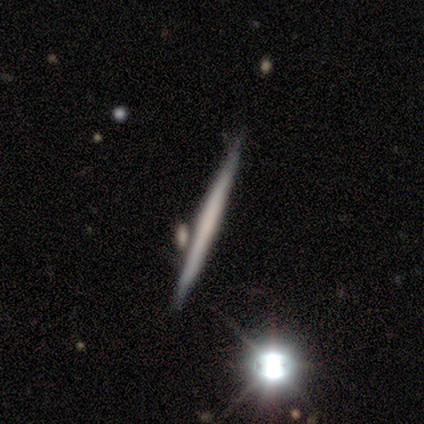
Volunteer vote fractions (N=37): A featured or disk galaxy (46%) viewed edge-on (100%) with no central bulge (94%).

Vote fractions:
- Smooth or featured? featured or disk: 46% / smooth: 43% / star or artifact: 11%
- Edge-on disk? yes: 100% / no: 0%
- Edge-on bulge? none: 94% / boxy: 6% / rounded: 0%
- Merging? none: 70% / minor disturbance: 18% / merger: 9% / major disturbance: 3%